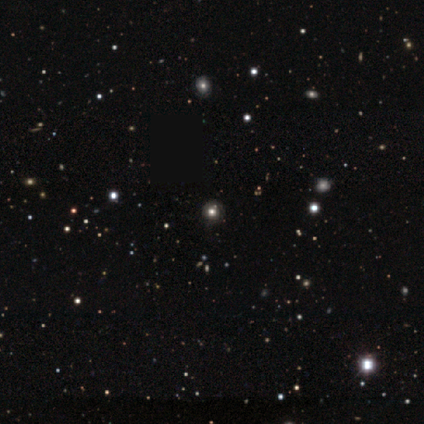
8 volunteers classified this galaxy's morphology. smooth_or_featured: star or artifact (p=0.75) [alt: smooth p=0.25]